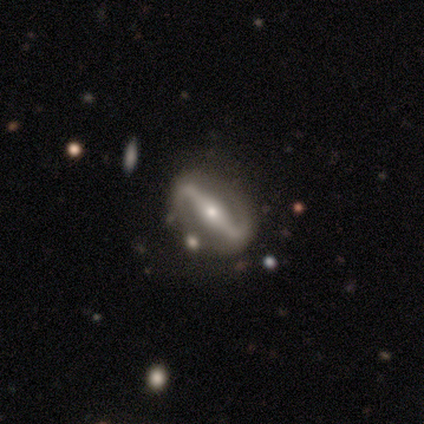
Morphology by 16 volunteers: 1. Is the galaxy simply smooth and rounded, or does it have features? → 88% featured or disk, 12% smooth, 0% star or artifact.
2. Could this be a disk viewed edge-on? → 93% no, 7% yes.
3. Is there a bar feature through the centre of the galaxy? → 100% strong, 0% weak, 0% no.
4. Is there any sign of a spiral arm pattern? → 77% yes, 23% no.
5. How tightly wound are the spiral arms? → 50% loose, 40% medium, 10% tight.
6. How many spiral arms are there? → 100% 2, 0% 1, 0% 3, 0% 4, 0% more than 4, 0% can't tell.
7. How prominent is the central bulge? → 62% small, 38% moderate, 0% dominant, 0% large, 0% none.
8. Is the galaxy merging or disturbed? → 88% none, 6% minor disturbance, 6% major disturbance, 0% merger.